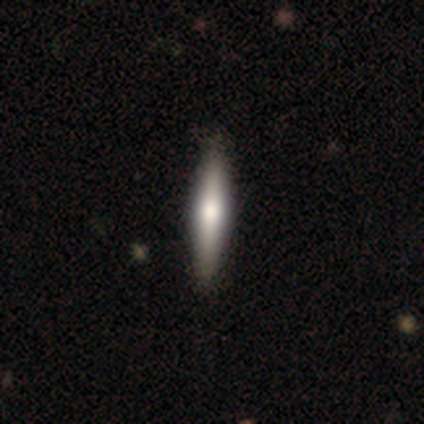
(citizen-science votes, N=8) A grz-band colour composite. It shows a smooth galaxy with no disk features (50%) that is cigar-shaped (75%). Merging: none (100%).